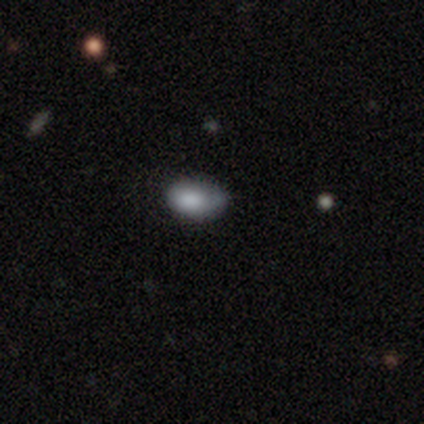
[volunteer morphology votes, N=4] This is possibly a smooth galaxy (50%, tied with featured or disk). How rounded: clearly in between (100%). Merging: possibly minor disturbance (50%).